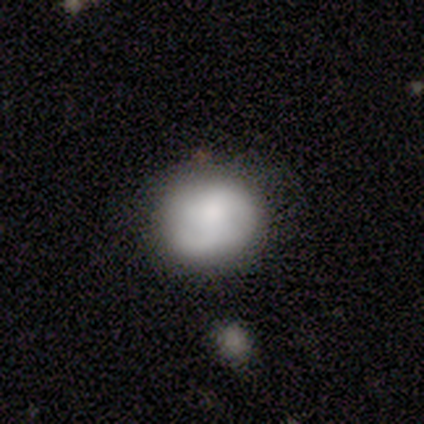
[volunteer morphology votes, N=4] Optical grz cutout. It shows a smooth galaxy with no disk features (75%) that is round (67%). Merging: none (75%).